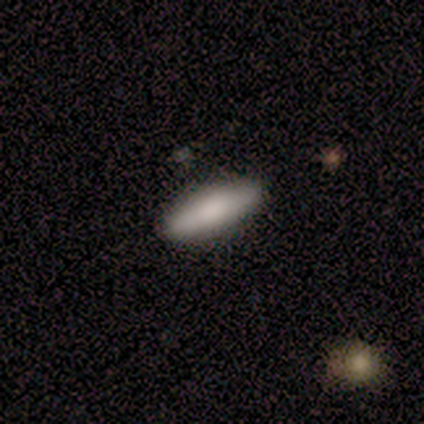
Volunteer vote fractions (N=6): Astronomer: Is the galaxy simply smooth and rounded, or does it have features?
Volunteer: smooth — 83%.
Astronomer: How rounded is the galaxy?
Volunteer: in between — 60% (runner-up: cigar-shaped, 40%).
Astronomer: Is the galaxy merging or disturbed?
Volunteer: none — 67%.